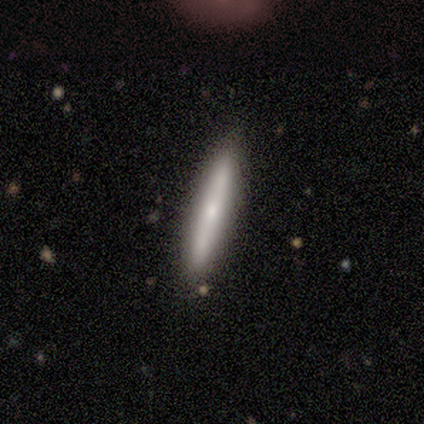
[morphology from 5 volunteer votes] Smooth or featured: featured or disk — 60% (smooth — 40%)
Edge-on disk: yes — 67% (no — 33%)
Edge-on bulge: rounded — 100%
Merging: none — 60% (minor disturbance — 20%)